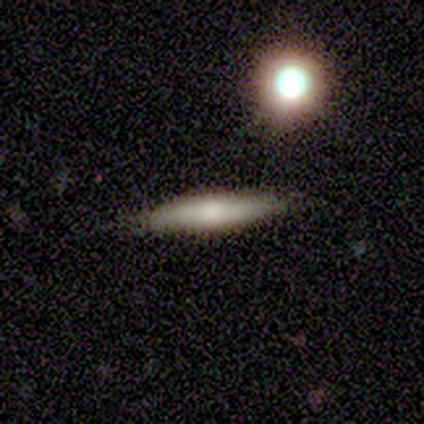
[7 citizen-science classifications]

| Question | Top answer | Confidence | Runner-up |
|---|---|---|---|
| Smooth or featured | smooth | 57% | star or artifact (29%) |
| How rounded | cigar-shaped | 75% | in between (25%) |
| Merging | none | 100% | — |